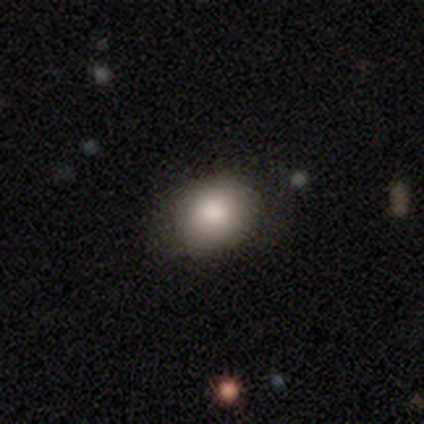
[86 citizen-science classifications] Smooth or featured? smooth (87%)
How rounded? round (59%)
Merging? none (83%)